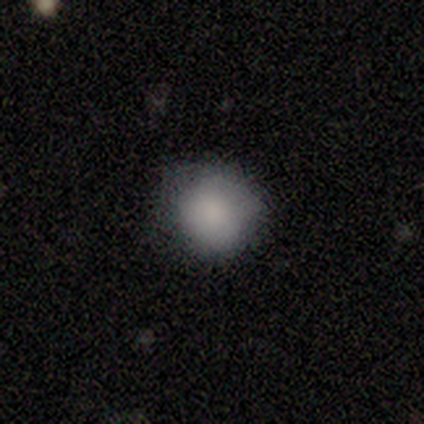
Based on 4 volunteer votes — Q: Smooth or featured?
A: smooth (75%); runner-up: star or artifact (25%)
Q: How rounded?
A: round (67%); runner-up: in between (33%)
Q: Merging?
A: none (67%); runner-up: minor disturbance (33%)